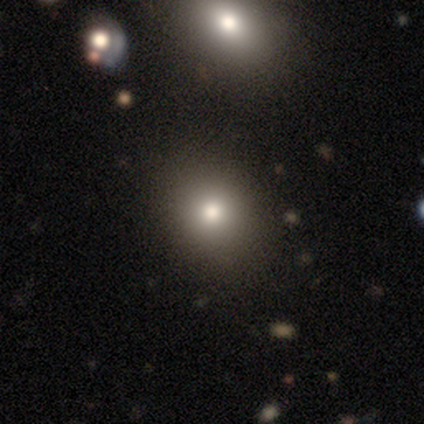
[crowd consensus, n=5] This is clearly a smooth galaxy (80%). How rounded: likely round (75%). Merging: clearly none (100%).